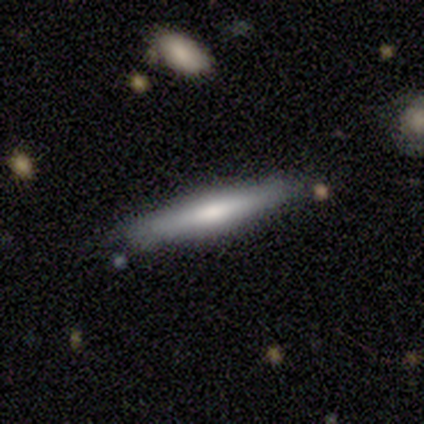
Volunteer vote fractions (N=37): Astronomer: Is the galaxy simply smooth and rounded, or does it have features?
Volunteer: smooth — 57% (runner-up: featured or disk, 43%).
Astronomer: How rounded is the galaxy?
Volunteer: cigar-shaped — 100%.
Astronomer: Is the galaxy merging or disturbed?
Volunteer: none — 86%.